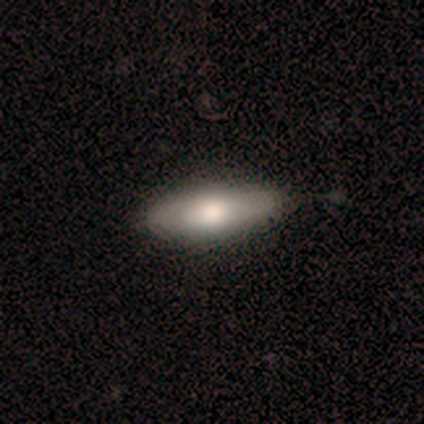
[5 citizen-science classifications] smooth 60%, featured or disk 40%, star or artifact 0%. Down the decision tree: how rounded — in between (100%); merging — none (100%).